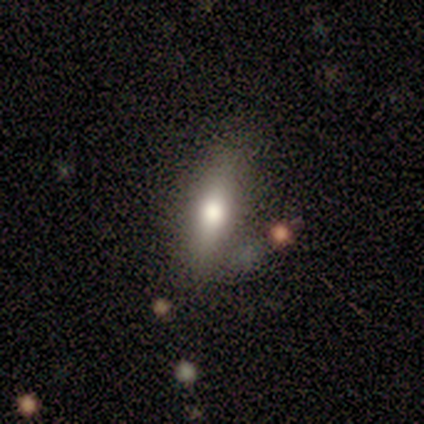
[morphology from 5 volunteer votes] This appears to be a smooth galaxy with no disk features (80%) that is in between round and cigar-shaped (75%). Merging: none (60%).